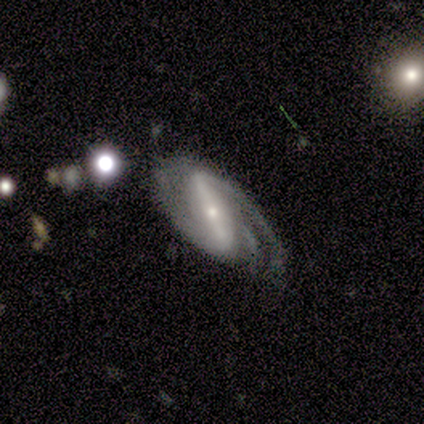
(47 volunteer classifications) Q: Smooth or featured?
A: featured or disk (83%); runner-up: smooth (13%)
Q: Edge-on disk?
A: no (97%); runner-up: yes (3%)
Q: Bar?
A: strong (74%); runner-up: weak (16%)
Q: Spiral arms?
A: yes (97%); runner-up: no (3%)
Q: Spiral winding?
A: medium (65%); runner-up: tight (19%)
Q: Spiral arm count?
A: 2 (59%); runner-up: 3 (30%)
Q: Bulge size?
A: small (76%); runner-up: moderate (24%)
Q: Merging?
A: none (60%); runner-up: minor disturbance (22%)